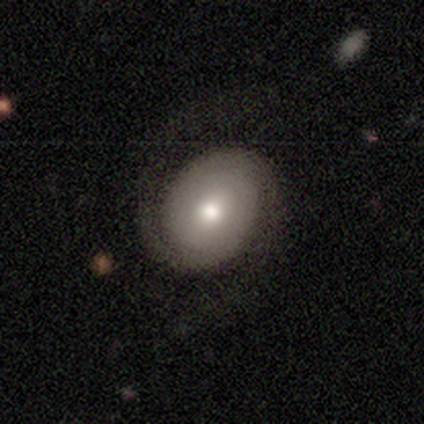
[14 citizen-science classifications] This is likely a featured or disk galaxy (79%). It is clearly not viewed edge-on (100%). Bar: likely no (73%). Spiral arm pattern: clearly yes (91%). Spiral arm count: clearly 2 (100%). Spiral winding: clearly tight (100%). Central bulge: possibly moderate (55%). Merging: likely none (79%).